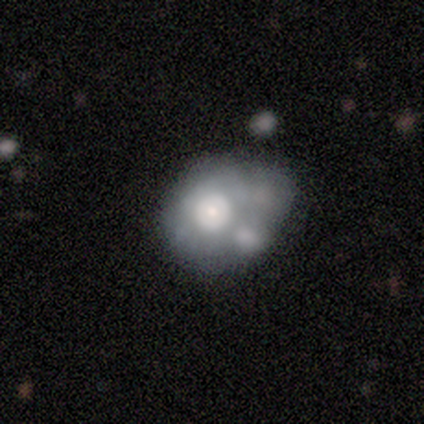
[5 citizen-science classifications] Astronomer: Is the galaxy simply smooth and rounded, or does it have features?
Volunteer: smooth — 60% (runner-up: featured or disk, 40%).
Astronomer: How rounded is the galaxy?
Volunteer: in between — 67%.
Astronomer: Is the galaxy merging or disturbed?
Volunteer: minor disturbance — 40%, tied with merger at 40%.